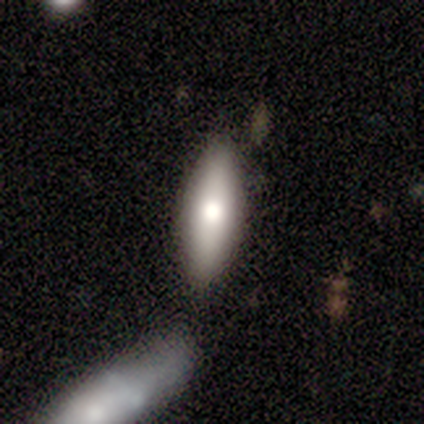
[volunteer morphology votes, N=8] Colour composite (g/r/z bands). It shows a smooth galaxy with no disk features (75%) that is in between round and cigar-shaped (67%). Merging: none (57%).